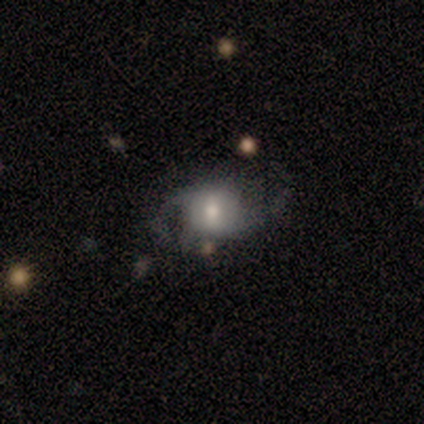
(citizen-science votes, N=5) This is likely a featured or disk galaxy (60%). It is clearly not viewed edge-on (100%). Bar: clearly no (100%). Spiral arm pattern: clearly yes (100%). Spiral arm count: clearly 2 (100%). Spiral winding: likely loose (67%). Central bulge: likely moderate (67%). Merging: possibly minor disturbance (50%).